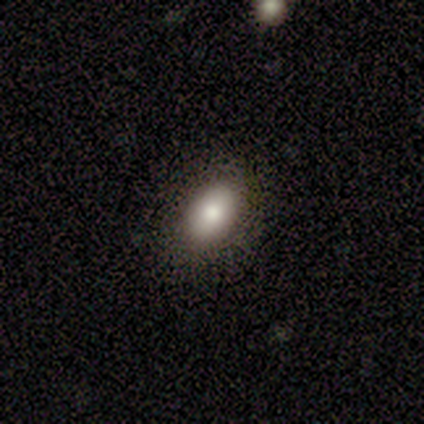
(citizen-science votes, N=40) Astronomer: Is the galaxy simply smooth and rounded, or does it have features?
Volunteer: smooth — 75%.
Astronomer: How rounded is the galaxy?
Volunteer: in between — 90%.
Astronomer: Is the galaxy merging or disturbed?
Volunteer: none — 88%.